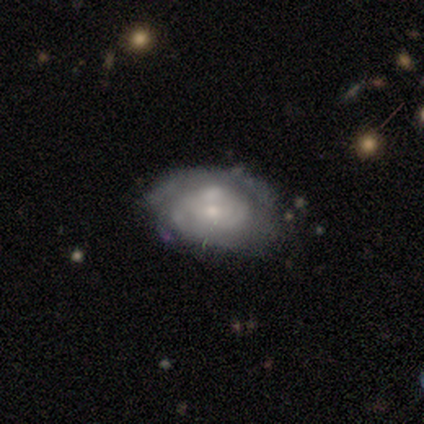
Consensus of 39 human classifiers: This appears to be a featured or disk galaxy (64%) with no bar (72%), tight (81%) spiral arms (64%) and a small central bulge (48%). Merging: none (50%).